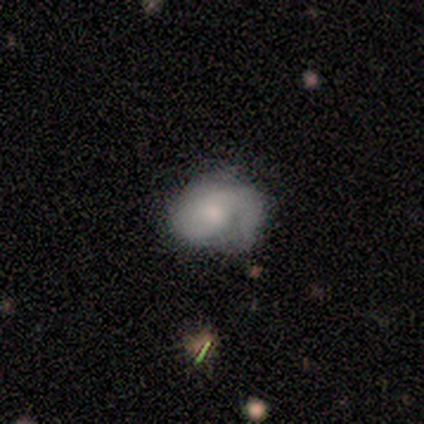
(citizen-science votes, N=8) A smooth galaxy with no disk features (38%, tied with featured or disk) that is in between round and cigar-shaped (67%).

Vote fractions:
- Smooth or featured? smooth: 38% (tied) / featured or disk: 38% (tied) / star or artifact: 25%
- How rounded? in between: 67% / round: 33% / cigar-shaped: 0%
- Merging? minor disturbance: 83% / none: 17% / major disturbance: 0% / merger: 0%